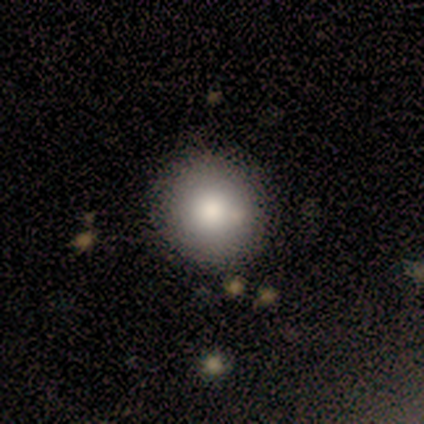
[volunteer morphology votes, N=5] A smooth galaxy with no disk features (60%) that is round (100%).

Vote fractions:
- Smooth or featured? smooth: 60% / star or artifact: 40% / featured or disk: 0%
- How rounded? round: 100% / in between: 0% / cigar-shaped: 0%
- Merging? none: 100% / minor disturbance: 0% / major disturbance: 0% / merger: 0%